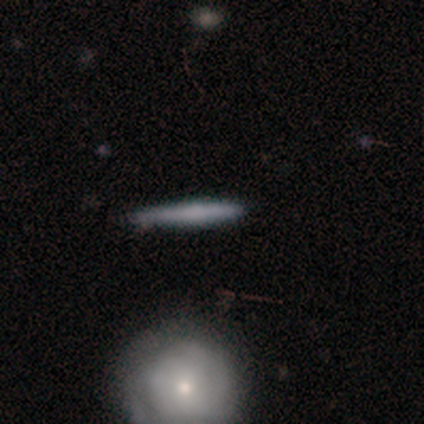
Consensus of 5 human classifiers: smooth-or-featured: featured or disk: 60% | smooth: 40% | star or artifact: 0%
  disk-edge-on: yes: 100% | no: 0%
    edge-on-bulge: none: 67% | rounded: 33% | boxy: 0%
  merging: none: 80% | major disturbance: 20% | minor disturbance: 0% | merger: 0%